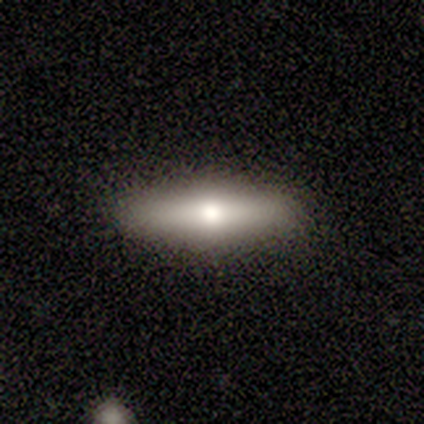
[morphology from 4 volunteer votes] Smooth or featured? smooth (100%)
How rounded? cigar-shaped (75%)
Merging? none (100%)